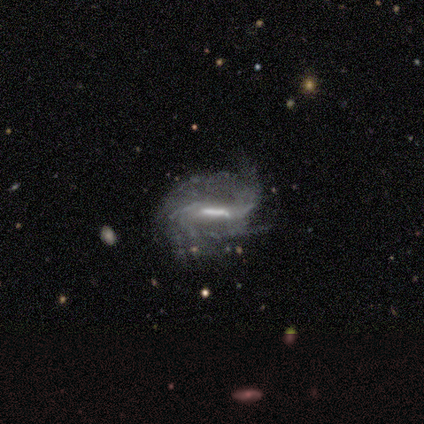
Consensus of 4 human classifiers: Morphology: type=featured or disk (100%); edge-on=no (75%); bar=strong (67%); spiral arms=yes (100%); winding=medium (67%); arm count=more than 4 (67%); bulge=moderate (33%, tied with small and none); merging=none (50%).